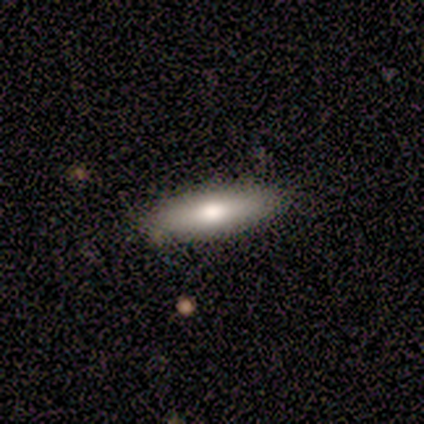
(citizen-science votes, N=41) Smooth or featured? smooth (56%)
How rounded? cigar-shaped (74%)
Merging? none (92%)